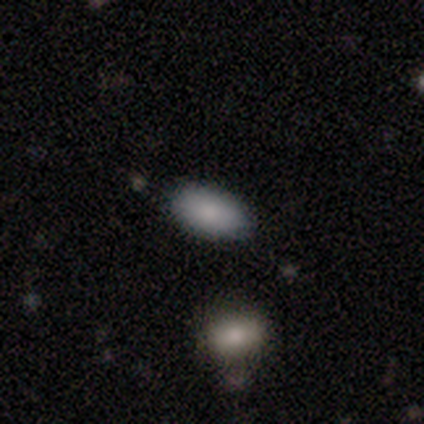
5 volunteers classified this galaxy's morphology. This appears to be a smooth galaxy with no disk features (60%) that is in between round and cigar-shaped (100%). Merging: none (80%).